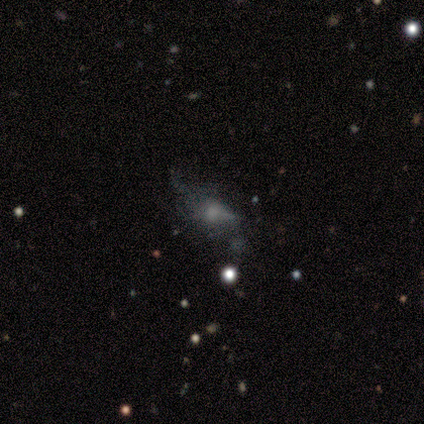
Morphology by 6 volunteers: Smooth or featured? featured or disk (50%, tied with star or artifact)
Edge-on disk? no (100%)
Bar? no (100%)
Spiral arms? no (100%)
Bulge size? large (33%, tied with moderate and none)
Merging? major disturbance (67%)